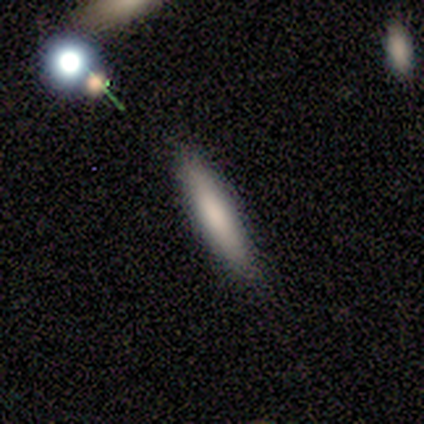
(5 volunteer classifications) smooth-or-featured: smooth: 80% | featured or disk: 20% | star or artifact: 0%
  how-rounded: cigar-shaped: 100% | round: 0% | in between: 0%
  merging: none: 60% | minor disturbance: 40% | major disturbance: 0% | merger: 0%